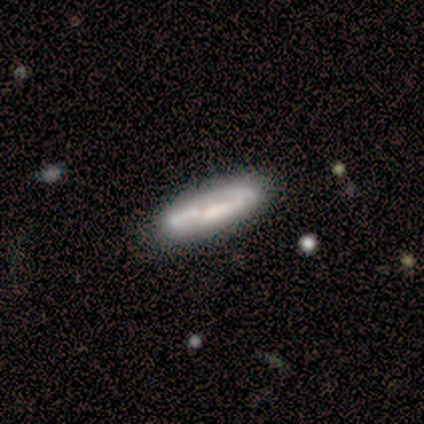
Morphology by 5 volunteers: Smooth or featured? featured or disk (80%)
Edge-on disk? yes (75%)
Edge-on bulge? none (67%)
Merging? none (100%)